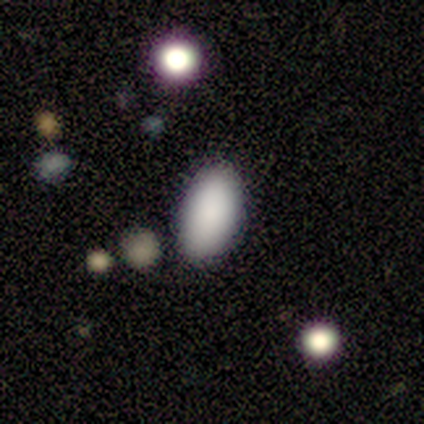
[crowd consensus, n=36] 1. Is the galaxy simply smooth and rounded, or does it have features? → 81% smooth, 11% star or artifact, 8% featured or disk.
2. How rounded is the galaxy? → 97% in between, 3% round, 0% cigar-shaped.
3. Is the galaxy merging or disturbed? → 88% none, 6% minor disturbance, 6% major disturbance, 0% merger.